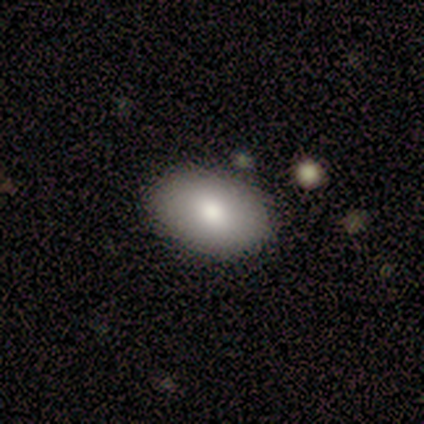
This is clearly a smooth galaxy (100%). How rounded: clearly in between (100%). Merging: clearly none (100%).